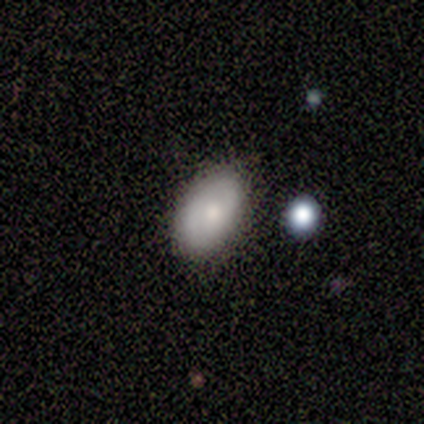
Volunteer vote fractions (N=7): Smooth or featured? 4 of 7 (57%) said smooth. How rounded? 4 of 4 (100%) said in between. Merging? 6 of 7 (86%) said none.